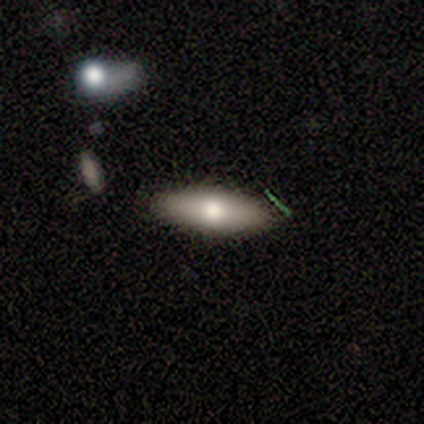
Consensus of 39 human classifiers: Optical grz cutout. It shows a smooth galaxy with no disk features (72%) that is in between round and cigar-shaped (75%). Merging: none (88%).